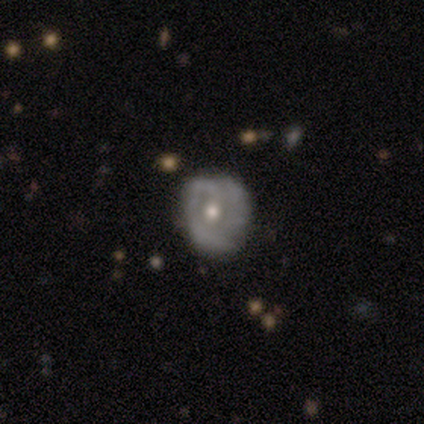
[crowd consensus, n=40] A featured or disk galaxy (75%) with no bar (77%), tight (59%) spiral arms (57%) and a moderate central bulge (73%).

Vote fractions:
- Smooth or featured? featured or disk: 75% / smooth: 25% / star or artifact: 0%
- Edge-on disk? no: 100% / yes: 0%
- Bar? no: 77% / weak: 20% / strong: 3%
- Spiral arms? yes: 57% / no: 43%
- Spiral winding? tight: 59% / medium: 41% / loose: 0%
- Spiral arm count? can't tell: 35% / 2: 29% / 3: 29% / 1: 6% / 4: 0% / more than 4: 0%
- Bulge size? moderate: 73% / small: 27% / dominant: 0% / large: 0% / none: 0%
- Merging? none: 55% / minor disturbance: 20% / major disturbance: 5% / merger: 0%